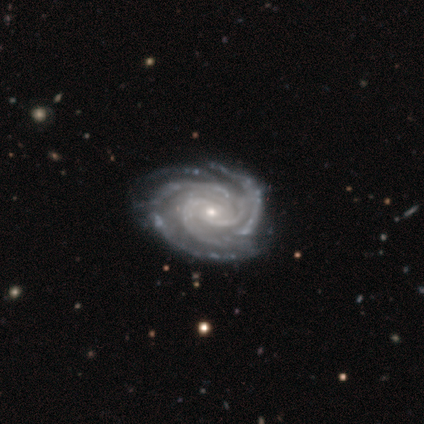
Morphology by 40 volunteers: Smooth or featured? 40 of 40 (100%) said featured or disk. Edge-on disk? 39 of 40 (98%) said no. Bar? 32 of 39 (82%) said no. Spiral arms? 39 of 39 (100%) said yes. Spiral winding? 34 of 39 (87%) said tight. Spiral arm count? 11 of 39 (28%) said more than 4. Bulge size? 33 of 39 (85%) said small. Merging? 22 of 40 (55%) said none.